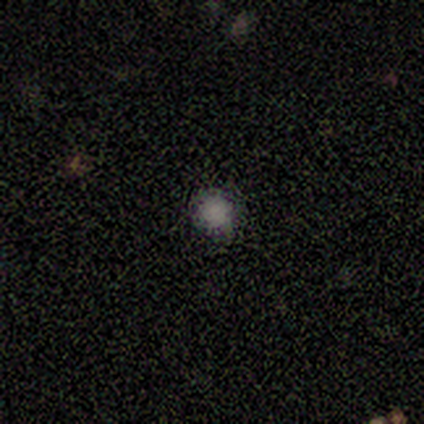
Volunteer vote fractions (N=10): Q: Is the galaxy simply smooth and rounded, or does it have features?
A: smooth — 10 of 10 (100%).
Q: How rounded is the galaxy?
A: round — 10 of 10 (100%).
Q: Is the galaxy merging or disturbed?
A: none — 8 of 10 (80%).